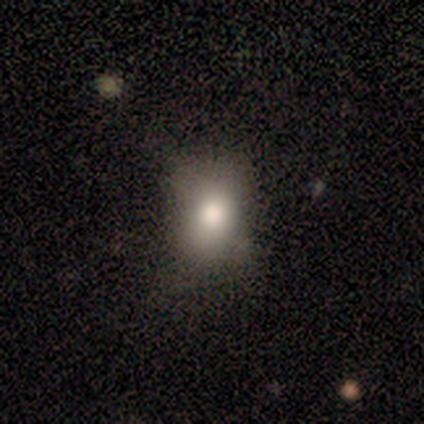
Smooth or featured? smooth (40%, tied with featured or disk)
How rounded? round (100%)
Merging? minor disturbance (50%)